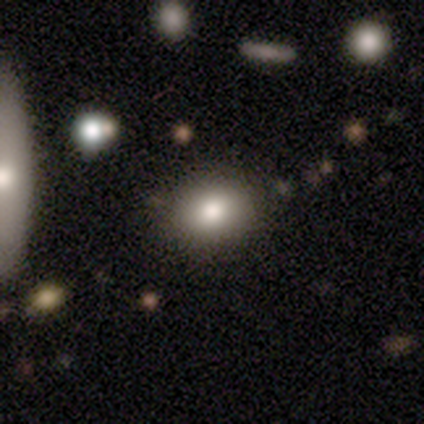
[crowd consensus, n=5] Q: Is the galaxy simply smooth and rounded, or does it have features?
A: smooth — 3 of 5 (60%).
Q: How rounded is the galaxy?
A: in between — 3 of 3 (100%).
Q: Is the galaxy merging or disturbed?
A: none — 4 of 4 (100%).